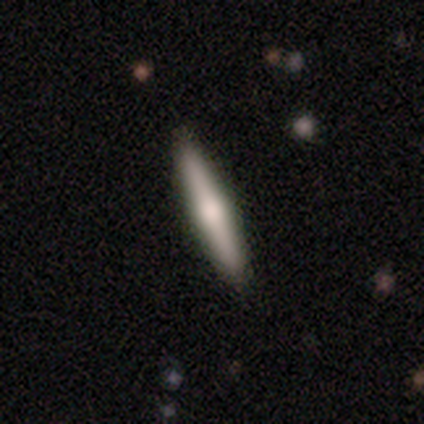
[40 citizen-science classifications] Smooth or featured?
  - smooth: 52% *
  - featured or disk: 40%
  - star or artifact: 8%
How rounded?
  - cigar-shaped: 81% *
  - round: 10%
  - in between: 10%
Merging?
  - none: 92% *
  - minor disturbance: 5%
  - merger: 3%
  - major disturbance: 0%